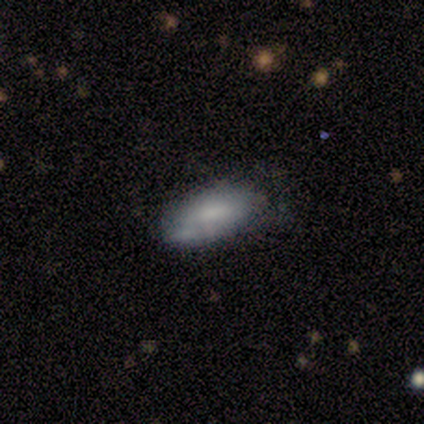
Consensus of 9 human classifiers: Overall: smooth (56%; featured or disk 33%). How rounded: in between (100%). Merging: minor disturbance (62%; none 25%).